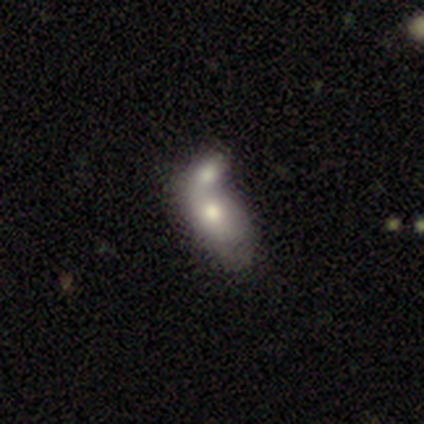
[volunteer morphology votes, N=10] type=featured or disk (60%); edge-on=no (100%); bar=no (67%); spiral arms=no (100%); bulge=moderate (50%); merging=merger (100%).